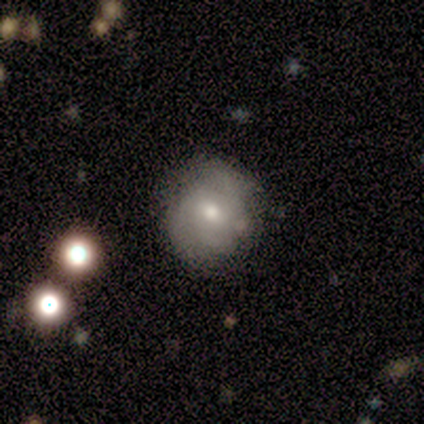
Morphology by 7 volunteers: A featured or disk galaxy (57%) with no bar (75%), 3 (50%, tied with can't tell) tight (50%, tied with medium) spiral arms (50%, tied with no) and a moderate central bulge (50%, tied with small).

Vote fractions:
- Smooth or featured? featured or disk: 57% / smooth: 29% / star or artifact: 14%
- Edge-on disk? no: 100% / yes: 0%
- Bar? no: 75% / weak: 25% / strong: 0%
- Spiral arms? yes: 50% (tied) / no: 50% (tied)
- Spiral winding? tight: 50% (tied) / medium: 50% (tied) / loose: 0%
- Spiral arm count? 3: 50% (tied) / can't tell: 50% (tied) / 1: 0% / 2: 0% / 4: 0% / more than 4: 0%
- Bulge size? moderate: 50% (tied) / small: 50% (tied) / dominant: 0% / large: 0% / none: 0%
- Merging? minor disturbance: 67% / none: 33% / major disturbance: 0% / merger: 0%